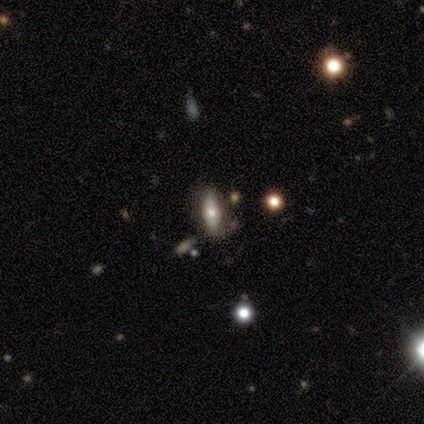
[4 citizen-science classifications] Smooth or featured?
  - smooth: 75% *
  - star or artifact: 25%
  - featured or disk: 0%
How rounded?
  - in between: 67% *
  - cigar-shaped: 33%
  - round: 0%
Merging?
  - minor disturbance: 67% *
  - none: 33%
  - major disturbance: 0%
  - merger: 0%